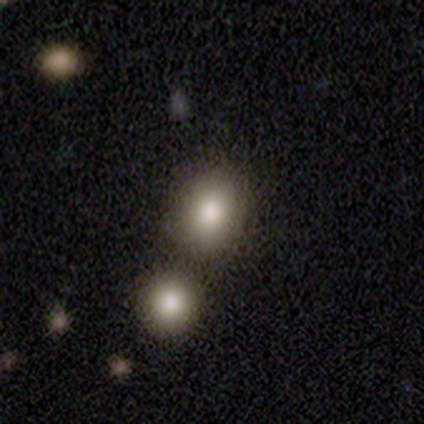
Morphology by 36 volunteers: A smooth galaxy with no disk features (94%) that is round (56%). Merging: merger (67%).